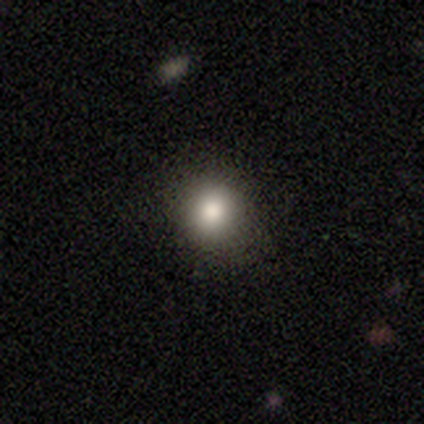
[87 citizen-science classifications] smooth 83%, star or artifact 14%, featured or disk 3%. Down the decision tree: how rounded — round (86%); merging — none (91%).